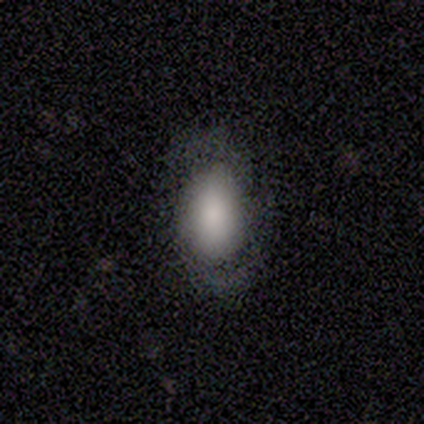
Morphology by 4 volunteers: This appears to be a smooth galaxy with no disk features (100%) that is in between round and cigar-shaped (75%). Merging: none (75%).